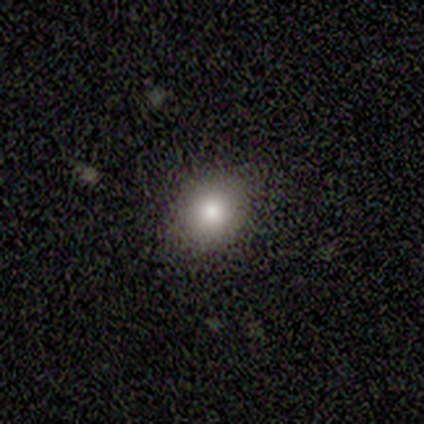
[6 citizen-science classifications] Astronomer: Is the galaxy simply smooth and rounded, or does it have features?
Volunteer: smooth — 100%.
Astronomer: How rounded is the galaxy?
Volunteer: round — 83%.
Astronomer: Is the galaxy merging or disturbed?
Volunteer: none — 83%.